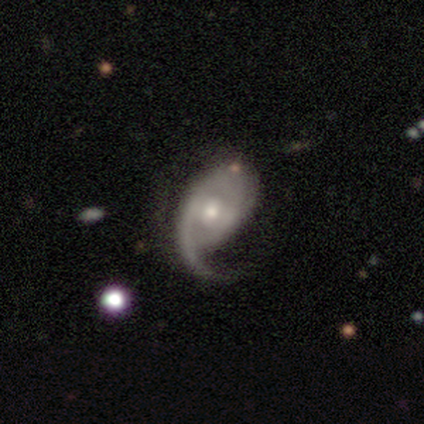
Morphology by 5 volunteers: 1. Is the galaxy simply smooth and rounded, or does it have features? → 100% featured or disk, 0% smooth, 0% star or artifact.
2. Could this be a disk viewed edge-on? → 100% no, 0% yes.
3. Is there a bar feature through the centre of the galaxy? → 40% strong (tied), 40% no (tied), 20% weak.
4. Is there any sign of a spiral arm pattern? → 80% yes, 20% no.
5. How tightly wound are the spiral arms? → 75% medium, 25% tight, 0% loose.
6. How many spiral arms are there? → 75% 1, 25% can't tell, 0% 2, 0% 3, 0% 4, 0% more than 4.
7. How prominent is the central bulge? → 60% moderate, 40% small, 0% dominant, 0% large, 0% none.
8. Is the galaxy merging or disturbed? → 40% minor disturbance (tied), 40% major disturbance (tied), 20% none, 0% merger.